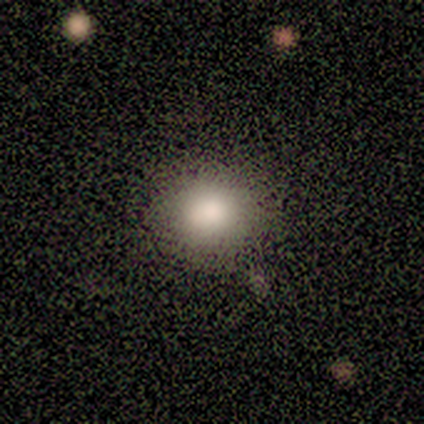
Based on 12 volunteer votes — smooth_or_featured: smooth (p=0.75) [alt: featured or disk p=0.17]
how_rounded: round (p=1.00)
merging: none (p=0.82) [alt: minor disturbance p=0.18]